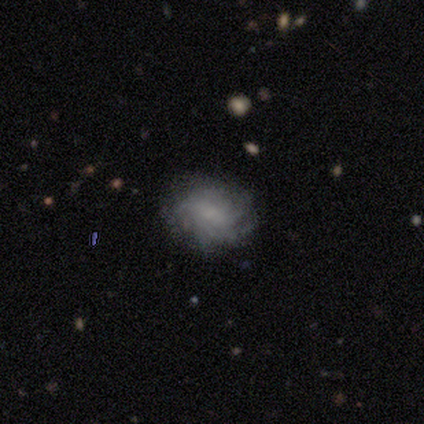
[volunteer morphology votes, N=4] This is clearly a featured or disk galaxy (100%). It is clearly not viewed edge-on (100%). Bar: likely no (75%). Spiral arm pattern: clearly yes (100%). Spiral arm count: possibly more than 4 (50%, tied with can't tell). Spiral winding: likely tight (75%). Central bulge: possibly large (50%, tied with moderate). Merging: likely none (75%).